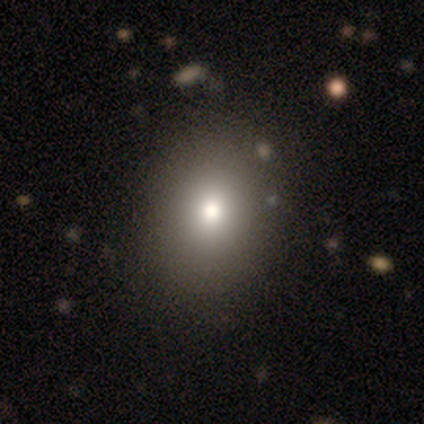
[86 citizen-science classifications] This appears to be a smooth galaxy with no disk features (76%) that is round (65%). Merging: none (92%).